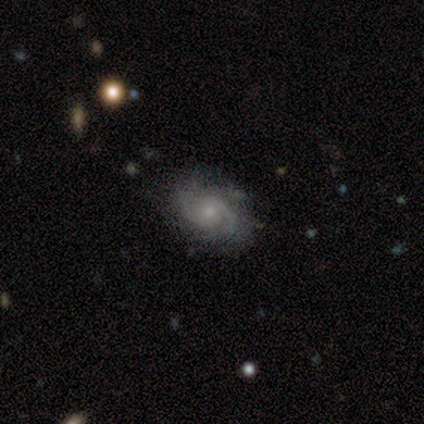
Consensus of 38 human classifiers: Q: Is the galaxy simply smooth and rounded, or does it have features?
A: featured or disk — 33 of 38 (87%).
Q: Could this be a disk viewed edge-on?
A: no — 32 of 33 (97%).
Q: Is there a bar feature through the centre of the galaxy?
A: no — 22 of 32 (69%).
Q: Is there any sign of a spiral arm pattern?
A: yes — 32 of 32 (100%).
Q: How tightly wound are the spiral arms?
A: tight — 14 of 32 (44%).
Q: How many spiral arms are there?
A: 2 — 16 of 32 (50%).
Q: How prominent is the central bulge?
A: small — 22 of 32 (69%).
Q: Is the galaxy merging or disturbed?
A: none — 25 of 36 (69%).